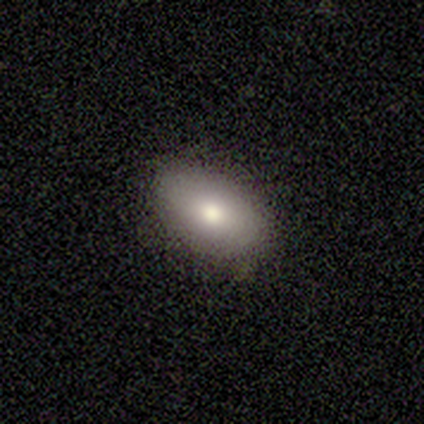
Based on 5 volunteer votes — Morphology: type=smooth (60%); roundness=in between (100%); merging=none (80%).